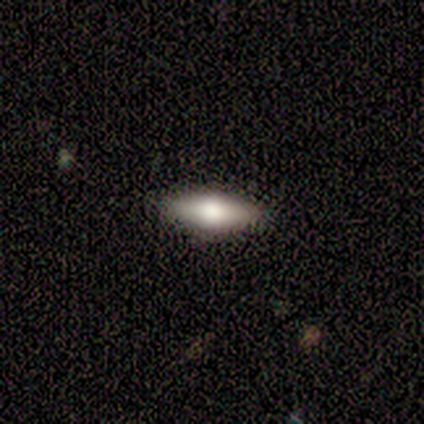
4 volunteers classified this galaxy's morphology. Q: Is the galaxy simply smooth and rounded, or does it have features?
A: smooth — 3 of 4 (75%).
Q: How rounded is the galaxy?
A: in between — 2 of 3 (67%).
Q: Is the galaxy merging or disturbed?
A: none — 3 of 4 (75%).